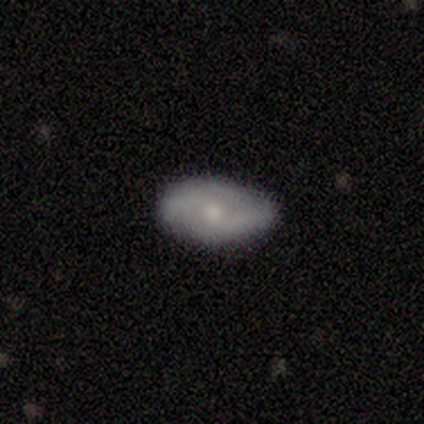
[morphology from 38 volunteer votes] Smooth or featured?
  - featured or disk: 50% *
  - smooth: 45%
  - star or artifact: 5%
Edge-on disk?
  - no: 100% *
  - yes: 0%
Bar?
  - no: 53% *
  - weak: 37%
  - strong: 11%
Spiral arms?
  - yes: 74% *
  - no: 26%
Spiral winding?
  - medium: 36% * (tied)
  - loose: 36% * (tied)
  - tight: 29%
Spiral arm count?
  - 2: 79% *
  - can't tell: 14%
  - 3: 7%
  - 1: 0%
  - 4: 0%
  - more than 4: 0%
Bulge size?
  - small: 53% *
  - moderate: 42%
  - none: 5%
  - dominant: 0%
  - large: 0%
Merging?
  - none: 75% *
  - minor disturbance: 19%
  - major disturbance: 6%
  - merger: 0%